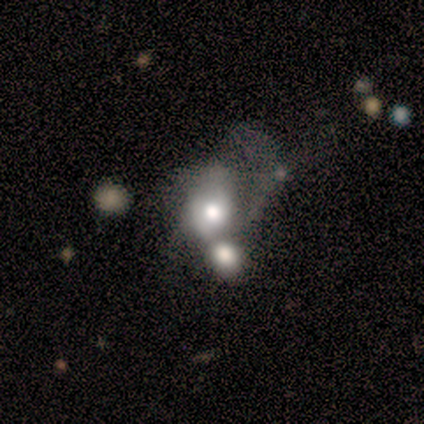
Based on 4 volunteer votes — featured or disk 75%, smooth 25%, star or artifact 0%. Down the decision tree: edge-on disk — no (100%); bar — no (100%); spiral arms — no (67%); bulge size — moderate (100%); merging — major disturbance (50%).